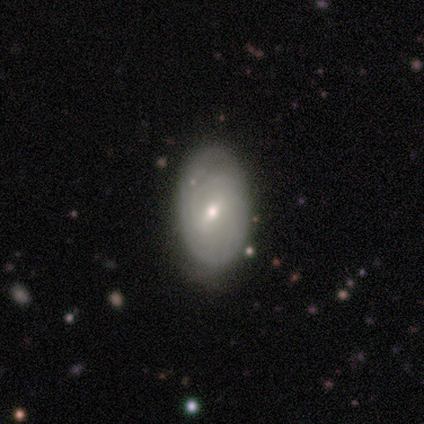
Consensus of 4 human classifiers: Morphology: type=smooth (50%, tied with featured or disk); roundness=in between (100%); merging=none (75%).